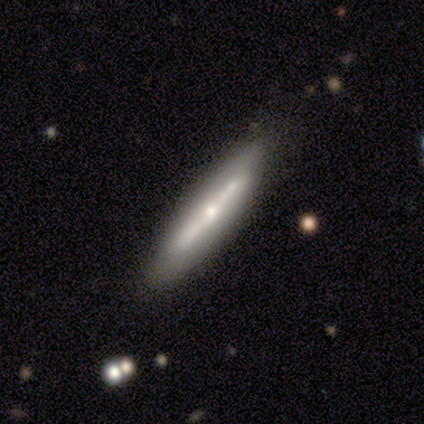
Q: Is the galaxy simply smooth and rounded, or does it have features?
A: featured or disk — 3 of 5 (60%).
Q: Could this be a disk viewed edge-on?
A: yes — 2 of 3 (67%).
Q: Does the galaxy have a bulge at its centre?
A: rounded — 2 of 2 (100%).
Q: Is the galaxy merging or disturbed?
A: none — 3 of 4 (75%).